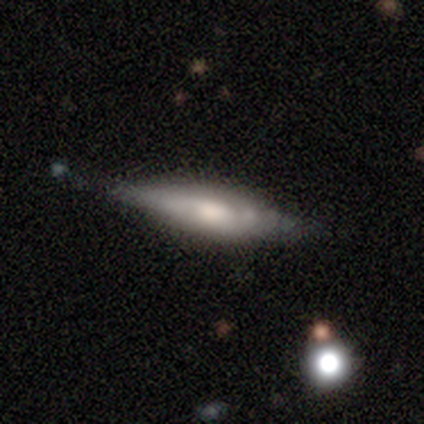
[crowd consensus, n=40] Volunteers were most divided on "smooth or featured": featured or disk: 60%, smooth: 35%, star or artifact: 5%. More confident: merging — none (71%); edge-on disk — yes (71%); edge-on bulge — rounded (65%).